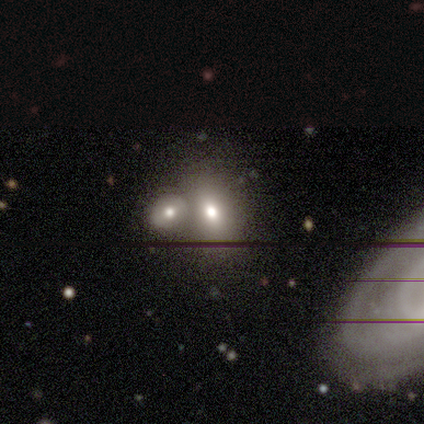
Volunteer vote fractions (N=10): smooth_or_featured: smooth (p=0.80) [alt: star or artifact p=0.20]
how_rounded: in between (p=0.88) [alt: round p=0.12]
merging: none (p=0.62) [alt: merger p=0.38]